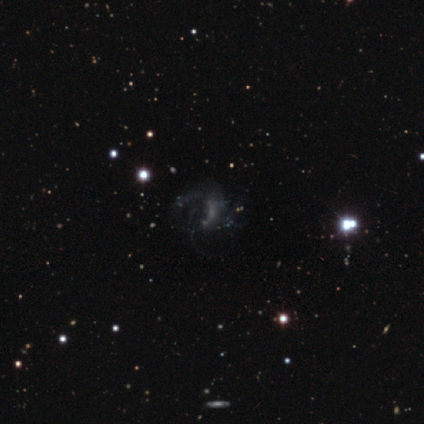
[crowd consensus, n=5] Overall: featured or disk (80%). Edge-on disk: no (100%). Bar: no (75%). Spiral arms: yes (75%). Spiral arm count: can't tell (67%; 3 33%). Spiral winding: loose (100%). Bulge size: none (100%). Merging: major disturbance (60%; none 20%).